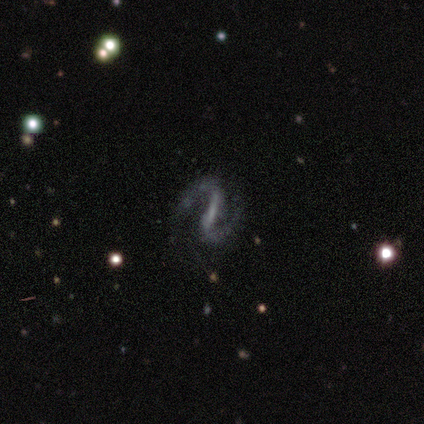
Smooth or featured: featured or disk — 100%
Edge-on disk: no — 100%
Bar: strong — 60% (weak — 40%)
Spiral arms: yes — 80% (no — 20%)
Spiral winding: medium — 75% (loose — 25%)
Spiral arm count: 2 — 100%
Bulge size: none — 80% (small — 20%)
Merging: none — 100%